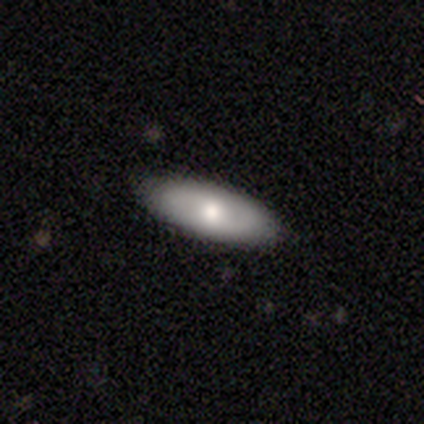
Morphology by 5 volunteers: Overall: featured or disk (80%). Edge-on disk: no (75%). Bar: weak (67%; no 33%). Spiral arms: yes (67%; no 33%). Spiral arm count: 2 (100%). Spiral winding: tight (100%). Bulge size: dominant (33%, tied with large and moderate). Merging: none (100%).